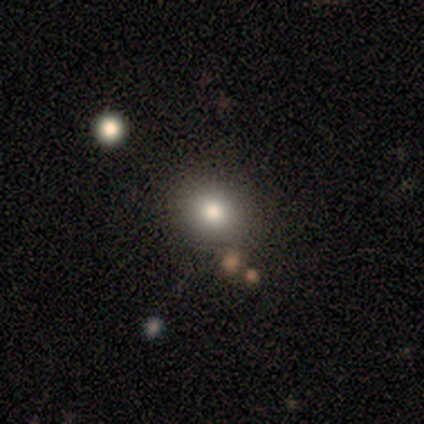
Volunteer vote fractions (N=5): Smooth or featured? smooth (80%)
How rounded? round (50%, tied with in between)
Merging? none (100%)